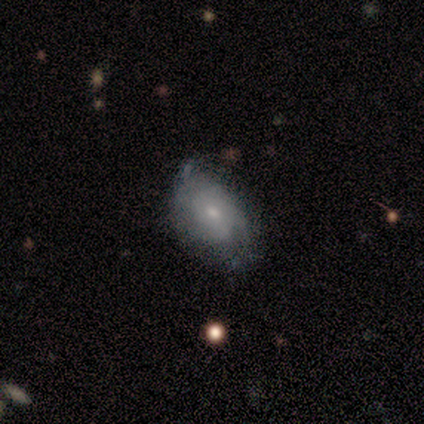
A smooth galaxy with no disk features (33%, tied with featured or disk and star or artifact) that is in between round and cigar-shaped (100%). Merging: none (100%).